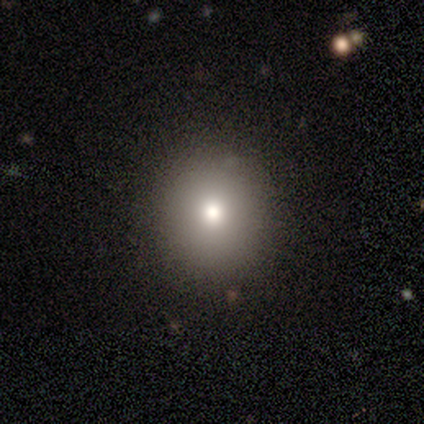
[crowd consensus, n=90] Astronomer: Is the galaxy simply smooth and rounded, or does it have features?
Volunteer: smooth — 71%.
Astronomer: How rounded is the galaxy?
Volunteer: round — 91%.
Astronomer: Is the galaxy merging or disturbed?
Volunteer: none — 89%.